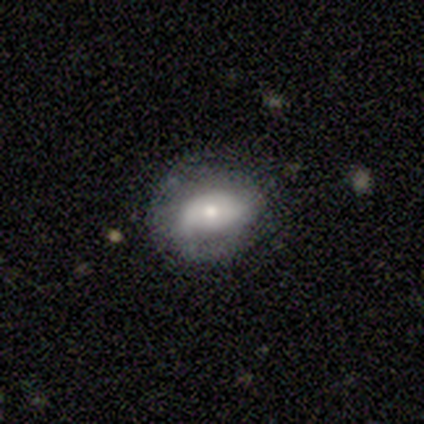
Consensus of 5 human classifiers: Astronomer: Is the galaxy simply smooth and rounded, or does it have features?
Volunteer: smooth — 60%.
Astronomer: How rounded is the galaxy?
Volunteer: in between — 100%.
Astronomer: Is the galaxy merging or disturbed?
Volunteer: none — 75%.